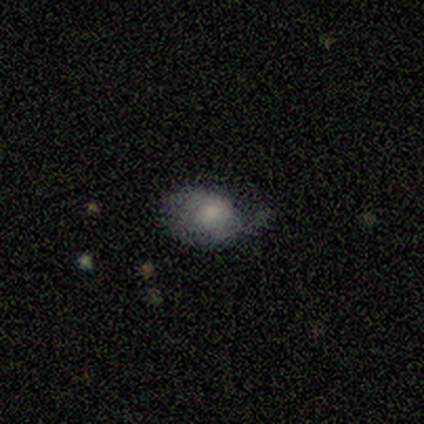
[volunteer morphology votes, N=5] A smooth galaxy with no disk features (60%) that is in between round and cigar-shaped (67%).

Vote fractions:
- Smooth or featured? smooth: 60% / featured or disk: 40% / star or artifact: 0%
- How rounded? in between: 67% / round: 33% / cigar-shaped: 0%
- Merging? none: 60% / minor disturbance: 40% / major disturbance: 0% / merger: 0%